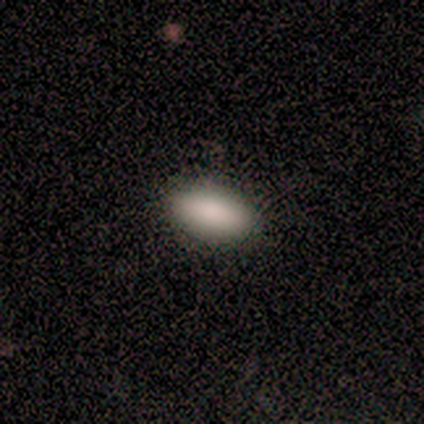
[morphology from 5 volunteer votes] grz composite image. It shows a smooth galaxy with no disk features (100%) that is in between round and cigar-shaped (100%). Merging: none (80%).